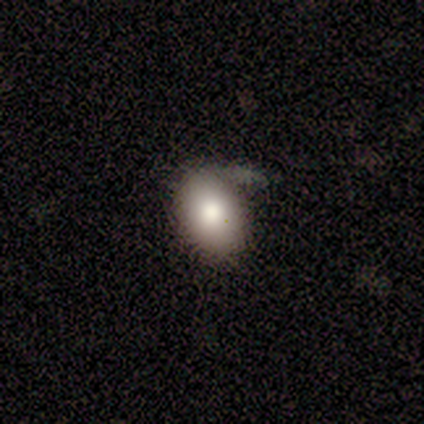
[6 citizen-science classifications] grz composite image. It shows a smooth galaxy with no disk features (83%) that is round (60%). Merging: none (60%).